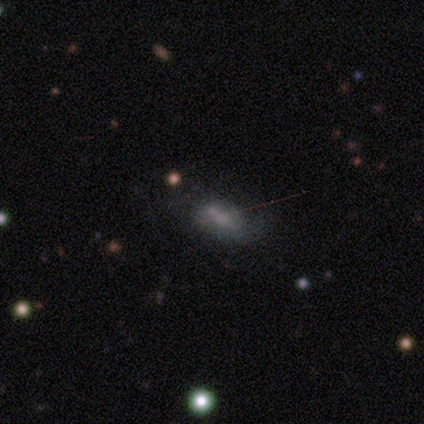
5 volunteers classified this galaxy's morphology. Smooth or featured? smooth (60%)
How rounded? in between (100%)
Merging? none (60%)